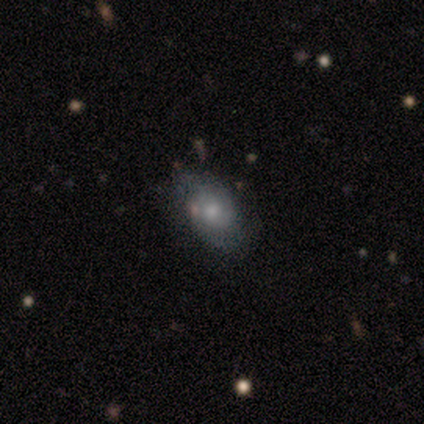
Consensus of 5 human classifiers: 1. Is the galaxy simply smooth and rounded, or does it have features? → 40% smooth (tied), 40% featured or disk (tied), 20% star or artifact.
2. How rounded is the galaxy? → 100% in between, 0% round, 0% cigar-shaped.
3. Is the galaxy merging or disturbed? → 50% major disturbance, 25% none, 25% minor disturbance, 0% merger.